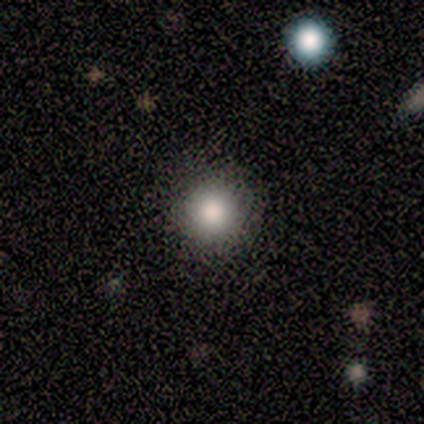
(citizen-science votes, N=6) This is likely a smooth galaxy (67%). How rounded: clearly round (100%). Merging: clearly none (100%).